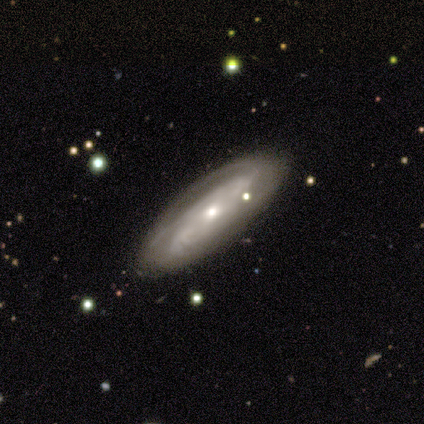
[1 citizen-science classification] Consensus on every question: smooth or featured — smooth (100%); how rounded — in between (100%); merging — major disturbance (100%).